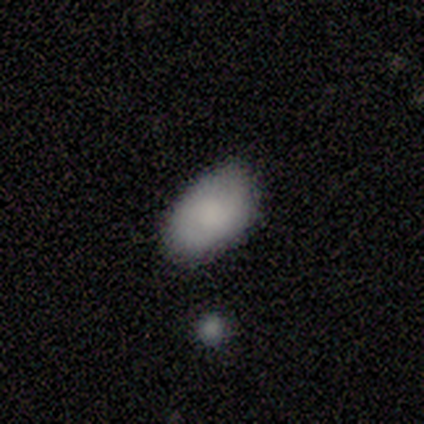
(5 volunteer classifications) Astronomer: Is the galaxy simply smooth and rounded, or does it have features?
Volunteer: smooth — 100%.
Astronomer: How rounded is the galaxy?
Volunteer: in between — 80%.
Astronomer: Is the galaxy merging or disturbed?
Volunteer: none — 60% (runner-up: minor disturbance, 40%).